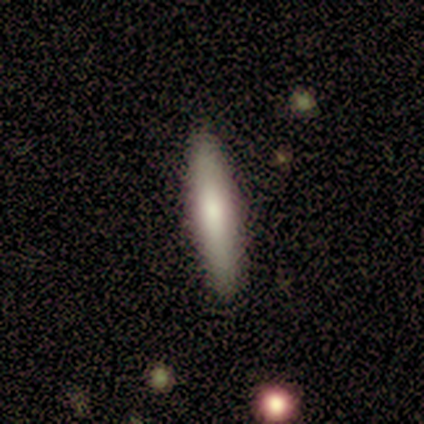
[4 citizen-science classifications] Volunteers were most divided on "smooth or featured" (2-way tie): smooth: 50%, featured or disk: 50%, star or artifact: 0%. More confident: how rounded — cigar-shaped (100%); merging — none (100%).